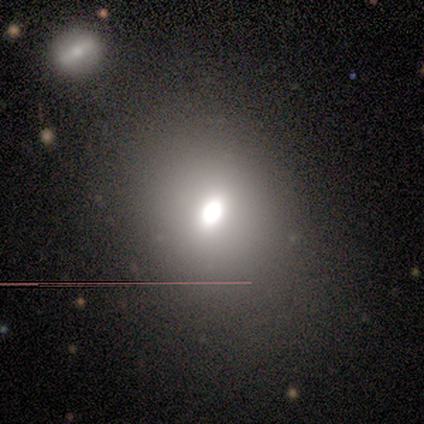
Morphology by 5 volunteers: This is likely a smooth galaxy (60%). How rounded: likely in between (67%). Merging: likely none (75%).